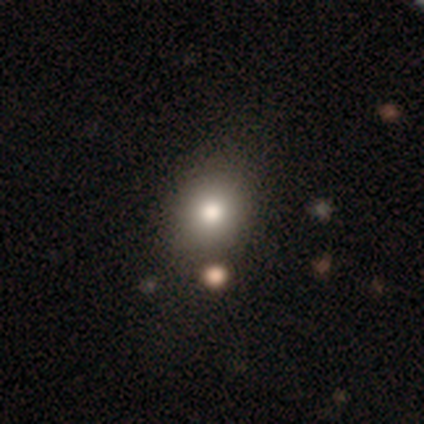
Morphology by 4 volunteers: Smooth or featured?
  - smooth: 50% * (tied)
  - featured or disk: 50% * (tied)
  - star or artifact: 0%
How rounded?
  - round: 100% *
  - in between: 0%
  - cigar-shaped: 0%
Merging?
  - none: 75% *
  - minor disturbance: 25%
  - major disturbance: 0%
  - merger: 0%